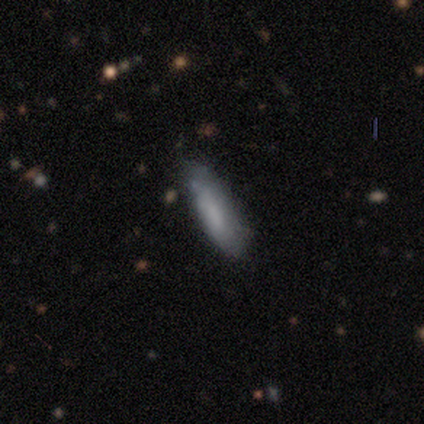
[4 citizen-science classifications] Smooth or featured? smooth (100%)
How rounded? in between (50%, tied with cigar-shaped)
Merging? none (75%)